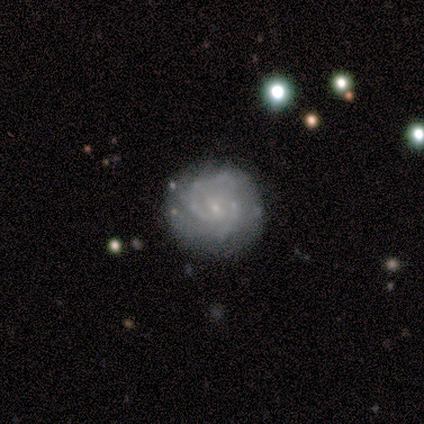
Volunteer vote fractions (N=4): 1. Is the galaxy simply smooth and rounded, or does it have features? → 75% featured or disk, 25% smooth, 0% star or artifact.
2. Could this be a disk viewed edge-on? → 67% no, 33% yes.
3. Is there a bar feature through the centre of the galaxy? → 50% strong (tied), 50% weak (tied), 0% no.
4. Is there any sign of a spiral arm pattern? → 100% yes, 0% no.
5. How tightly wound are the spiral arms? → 50% medium (tied), 50% loose (tied), 0% tight.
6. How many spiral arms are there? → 100% 2, 0% 1, 0% 3, 0% 4, 0% more than 4, 0% can't tell.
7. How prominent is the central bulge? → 100% small, 0% dominant, 0% large, 0% moderate, 0% none.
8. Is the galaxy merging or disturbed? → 75% none, 25% minor disturbance, 0% major disturbance, 0% merger.